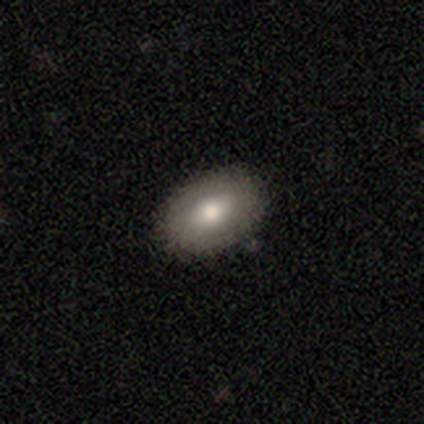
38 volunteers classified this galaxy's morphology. Smooth or featured: smooth — 82% (featured or disk — 16%)
How rounded: in between — 84% (round — 16%)
Merging: none — 92% (minor disturbance — 8%)